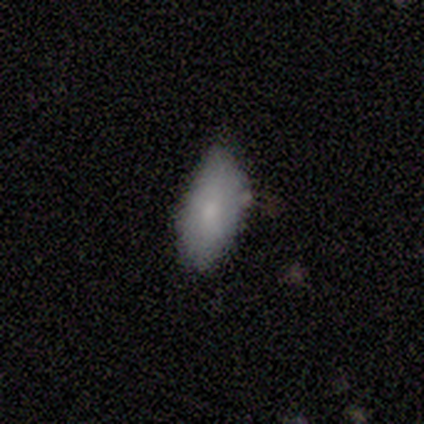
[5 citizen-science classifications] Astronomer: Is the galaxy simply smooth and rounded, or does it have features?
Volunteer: smooth — 100%.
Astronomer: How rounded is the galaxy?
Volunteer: in between — 100%.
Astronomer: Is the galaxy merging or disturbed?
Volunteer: none — 80%.